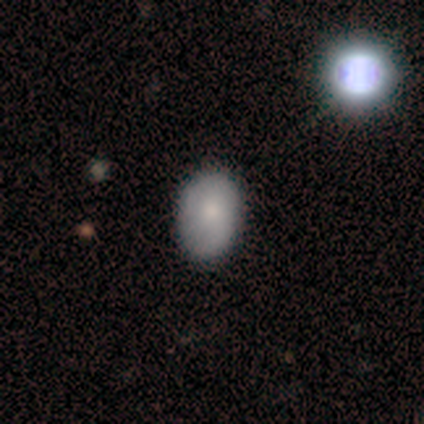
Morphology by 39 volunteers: Volunteers were most divided on "how rounded": in between: 75%, round: 25%, cigar-shaped: 0%. More confident: merging — none (79%); smooth or featured — smooth (72%).